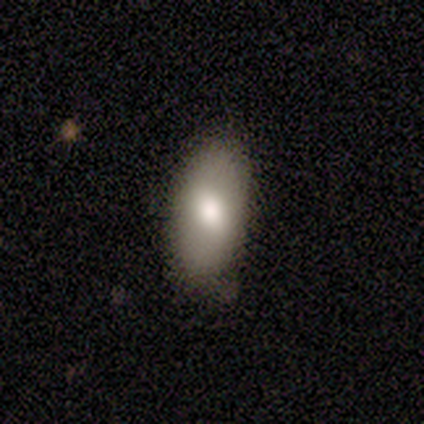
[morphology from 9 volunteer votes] Volunteers were most divided on "merging": none: 56%, minor disturbance: 44%, major disturbance: 0%, merger: 0%. More confident: smooth or featured — smooth (100%); how rounded — in between (100%).